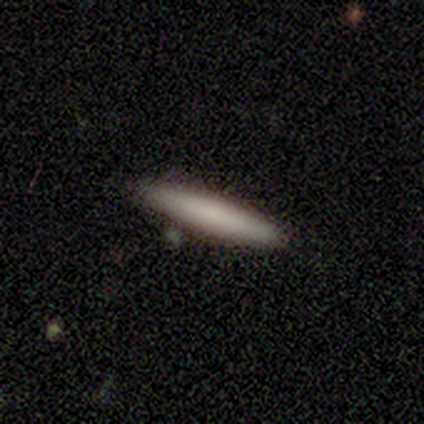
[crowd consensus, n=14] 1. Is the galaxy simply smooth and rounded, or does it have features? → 79% smooth, 14% featured or disk, 7% star or artifact.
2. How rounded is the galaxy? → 91% cigar-shaped, 9% in between, 0% round.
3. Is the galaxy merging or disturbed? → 92% none, 8% minor disturbance, 0% major disturbance, 0% merger.